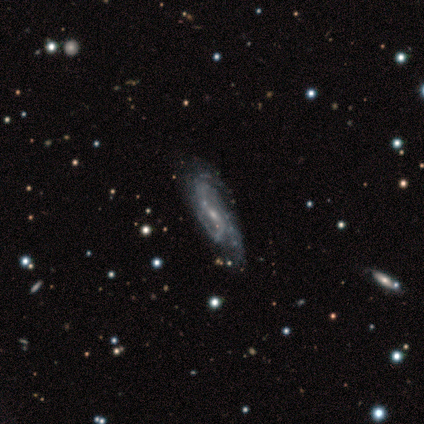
smooth_or_featured: featured or disk (p=1.00)
disk_edge_on: no (p=1.00)
bar: weak (p=0.60) [alt: no p=0.40]
has_spiral_arms: yes (p=1.00)
spiral_winding: tight (p=0.40) [tied with: medium p=0.40]
spiral_arm_count: 3 (p=0.40) [tied with: can't tell p=0.40]
bulge_size: small (p=1.00)
merging: none (p=0.40) [tied with: minor disturbance p=0.40]